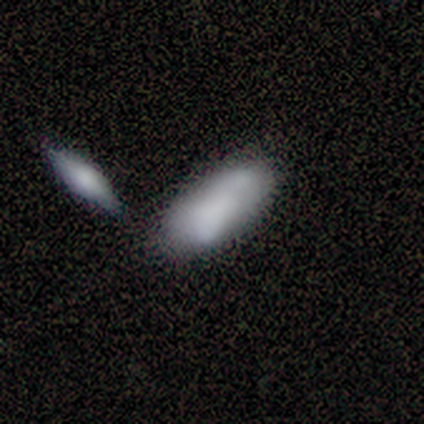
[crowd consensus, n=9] Morphology: type=smooth (56%); roundness=in between (80%); merging=none (44%).